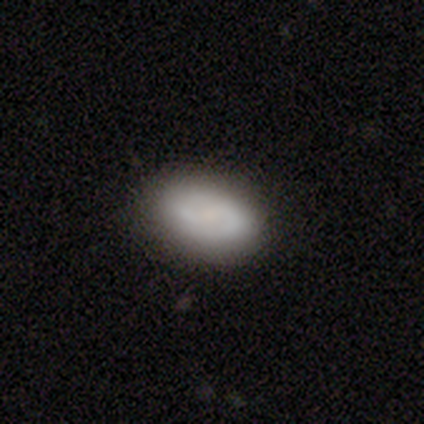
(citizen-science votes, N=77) Smooth or featured: smooth — 53% (featured or disk — 42%)
How rounded: in between — 88% (round — 12%)
Merging: none — 49% (minor disturbance — 4%)